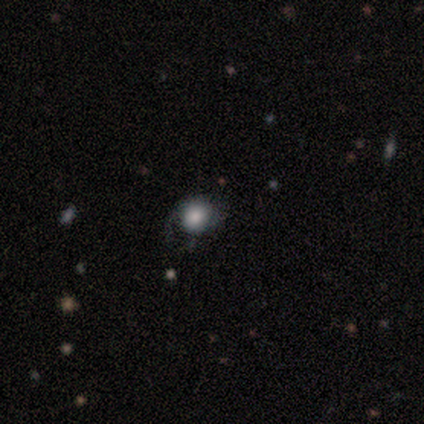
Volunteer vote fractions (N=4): Q: Smooth or featured?
A: smooth (75%); runner-up: star or artifact (25%)
Q: How rounded?
A: round (100%)
Q: Merging?
A: none (67%); runner-up: major disturbance (33%)